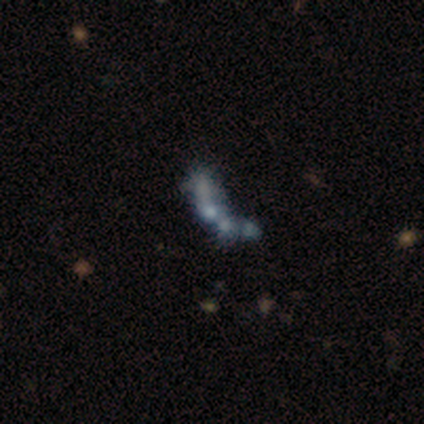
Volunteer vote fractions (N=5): This is likely a featured or disk galaxy (60%). It is clearly not viewed edge-on (100%). Bar: clearly no (100%). Spiral arm pattern: clearly no (100%). Central bulge: clearly none (100%). Merging: likely none (60%).